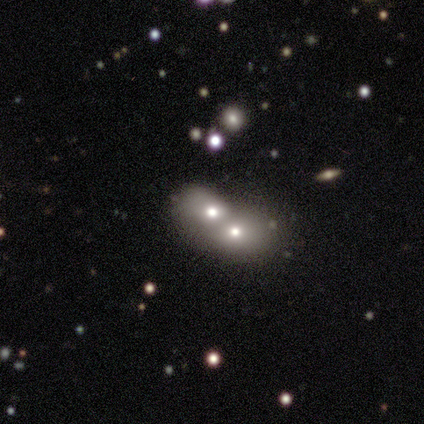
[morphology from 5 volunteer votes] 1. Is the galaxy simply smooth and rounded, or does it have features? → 60% smooth, 40% featured or disk, 0% star or artifact.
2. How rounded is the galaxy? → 67% round, 33% in between, 0% cigar-shaped.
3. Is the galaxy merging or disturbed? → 100% merger, 0% none, 0% minor disturbance, 0% major disturbance.